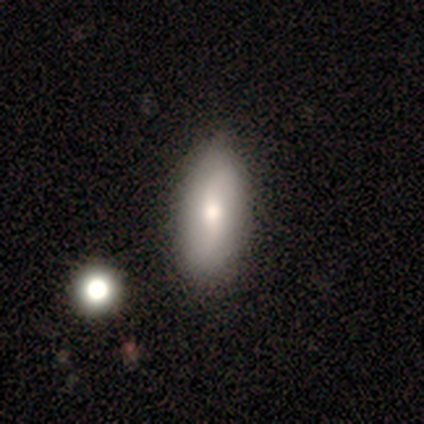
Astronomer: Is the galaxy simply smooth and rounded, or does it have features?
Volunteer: smooth — 100%.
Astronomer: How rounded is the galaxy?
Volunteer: cigar-shaped — 100%.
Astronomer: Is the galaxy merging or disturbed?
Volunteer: none — 100%.